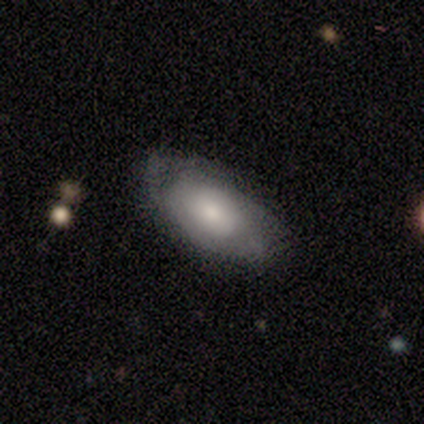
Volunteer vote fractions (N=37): This appears to be a smooth galaxy with no disk features (51%) that is in between round and cigar-shaped (100%). Merging: none (77%).